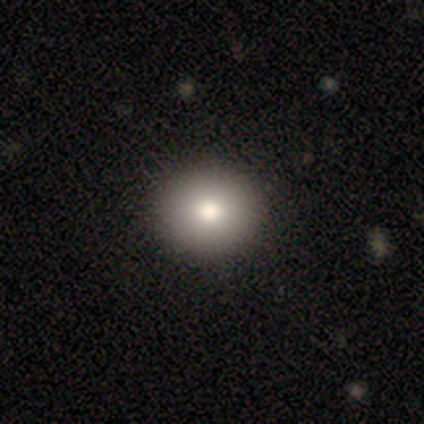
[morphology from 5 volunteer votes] A smooth galaxy with no disk features (100%) that is round (80%).

Vote fractions:
- Smooth or featured? smooth: 100% / featured or disk: 0% / star or artifact: 0%
- How rounded? round: 80% / in between: 20% / cigar-shaped: 0%
- Merging? none: 80% / minor disturbance: 20% / major disturbance: 0% / merger: 0%